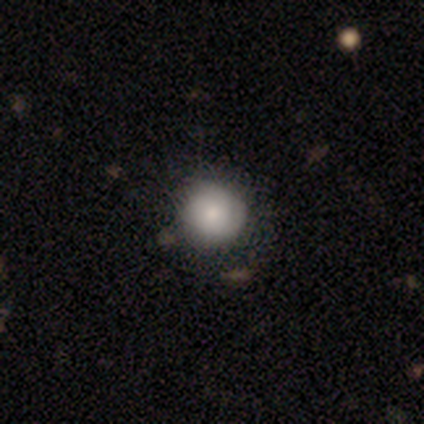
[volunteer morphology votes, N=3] Q: Smooth or featured?
A: smooth (100%)
Q: How rounded?
A: round (67%); runner-up: in between (33%)
Q: Merging?
A: none (100%)